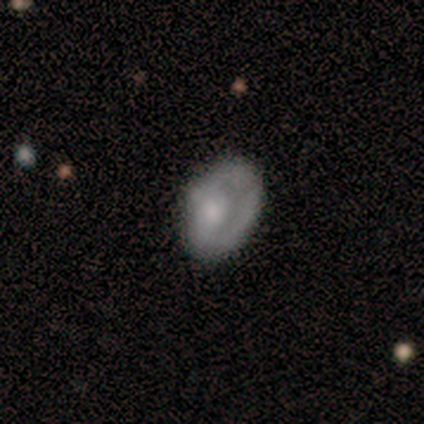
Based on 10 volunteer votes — Morphology: type=smooth (60%); roundness=in between (100%); merging=none (60%).